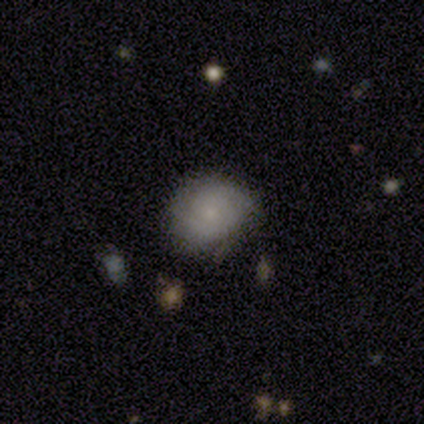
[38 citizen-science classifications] Smooth or featured?
  - smooth: 50% *
  - featured or disk: 45%
  - star or artifact: 5%
How rounded?
  - round: 63% *
  - in between: 37%
  - cigar-shaped: 0%
Merging?
  - none: 75% *
  - minor disturbance: 19%
  - major disturbance: 6%
  - merger: 0%